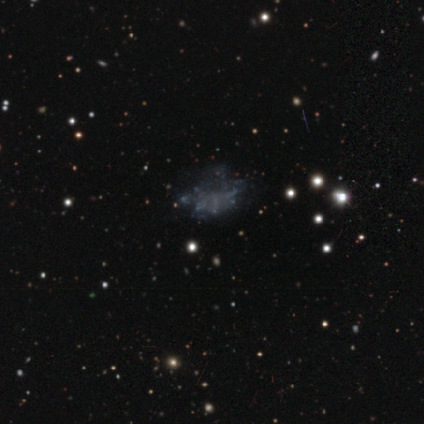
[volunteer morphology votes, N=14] A featured or disk galaxy (50%) with no bar (86%), no spiral arms (100%) and no central bulge (86%). Merging: none (100%).